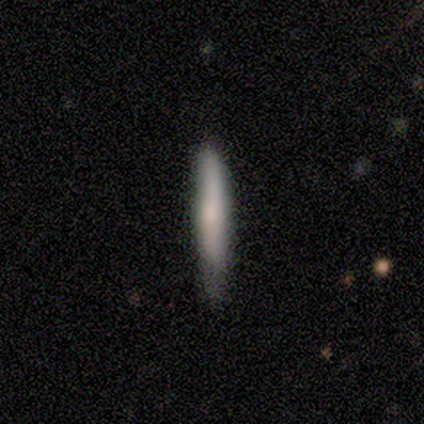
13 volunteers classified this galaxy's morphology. smooth-or-featured: smooth: 77% | featured or disk: 15% | star or artifact: 8%
  how-rounded: cigar-shaped: 100% | round: 0% | in between: 0%
  merging: none: 50% | minor disturbance: 42% | major disturbance: 8% | merger: 0%